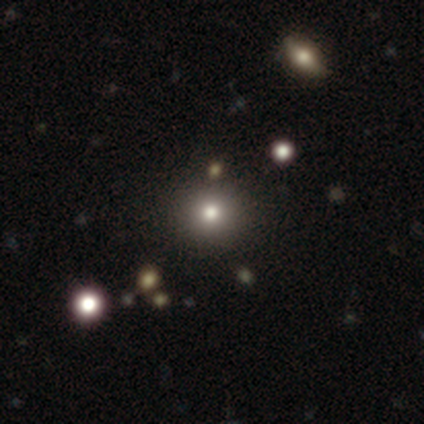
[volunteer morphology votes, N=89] A smooth galaxy with no disk features (71%) that is round (98%).

Vote fractions:
- Smooth or featured? smooth: 71% / star or artifact: 25% / featured or disk: 4%
- How rounded? round: 98% / in between: 2% / cigar-shaped: 0%
- Merging? none: 91% / major disturbance: 4% / merger: 3% / minor disturbance: 1%